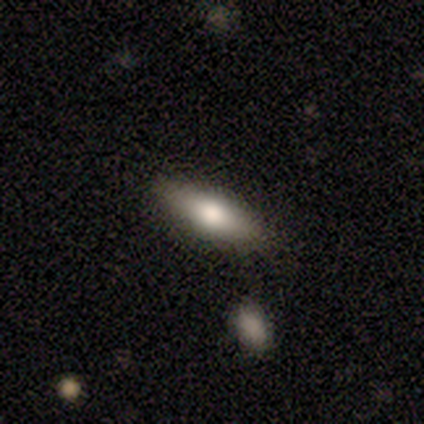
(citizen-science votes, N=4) smooth_or_featured: smooth (p=1.00)
how_rounded: cigar-shaped (p=0.75) [alt: in between p=0.25]
merging: none (p=0.75) [alt: merger p=0.25]